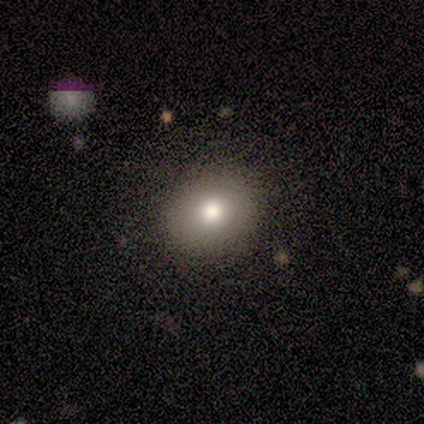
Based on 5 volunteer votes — smooth_or_featured: smooth (p=0.60) [alt: featured or disk p=0.20]
how_rounded: in between (p=0.67) [alt: round p=0.33]
merging: none (p=1.00)